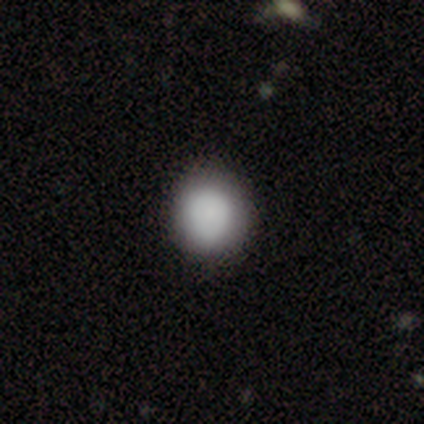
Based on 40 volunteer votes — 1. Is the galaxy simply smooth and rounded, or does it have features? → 85% smooth, 12% featured or disk, 2% star or artifact.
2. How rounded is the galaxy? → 79% round, 21% in between, 0% cigar-shaped.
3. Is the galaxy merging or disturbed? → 62% none, 13% minor disturbance, 3% major disturbance, 0% merger.